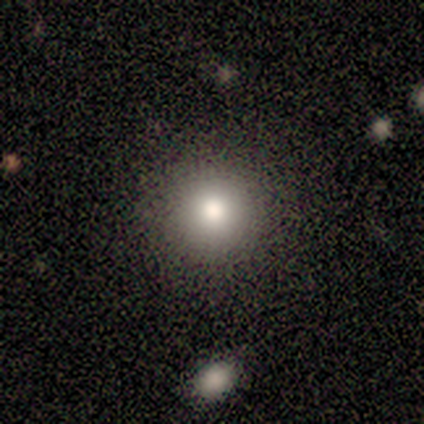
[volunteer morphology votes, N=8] Smooth or featured?
  - smooth: 88% *
  - star or artifact: 12%
  - featured or disk: 0%
How rounded?
  - round: 100% *
  - in between: 0%
  - cigar-shaped: 0%
Merging?
  - none: 100% *
  - minor disturbance: 0%
  - major disturbance: 0%
  - merger: 0%